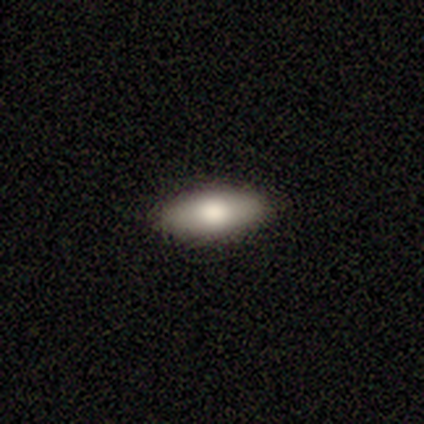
smooth-or-featured: smooth: 70% | featured or disk: 22% | star or artifact: 8%
  how-rounded: in between: 89% | cigar-shaped: 11% | round: 0%
  merging: none: 95% | minor disturbance: 3% | merger: 3% | major disturbance: 0%